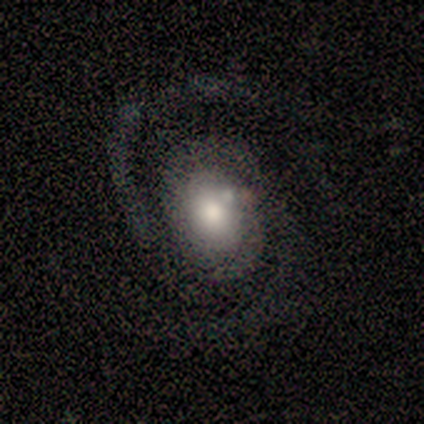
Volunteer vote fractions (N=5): Smooth or featured? featured or disk (100%)
Edge-on disk? no (100%)
Bar? no (80%)
Spiral arms? yes (100%)
Spiral winding? medium (60%)
Spiral arm count? 2 (100%)
Bulge size? large (100%)
Merging? none (60%)